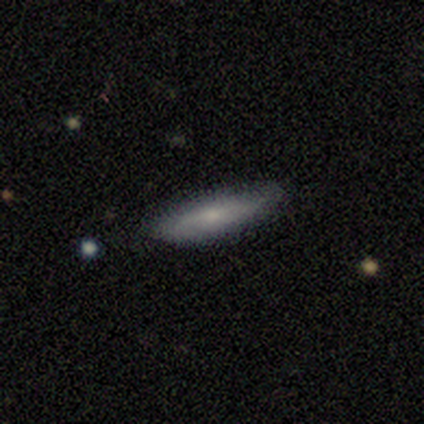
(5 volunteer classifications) smooth-or-featured: smooth: 100% | featured or disk: 0% | star or artifact: 0%
  how-rounded: cigar-shaped: 60% | in between: 40% | round: 0%
  merging: none: 100% | minor disturbance: 0% | major disturbance: 0% | merger: 0%